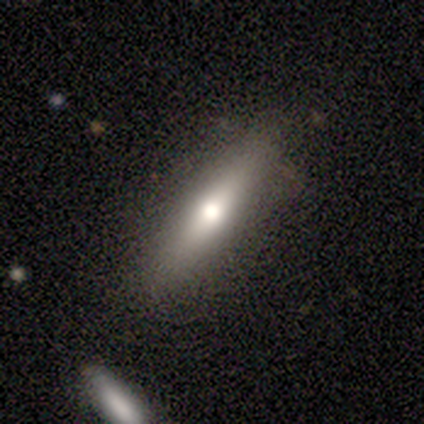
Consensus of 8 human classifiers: This is clearly a smooth galaxy (88%). How rounded: clearly cigar-shaped (86%). Merging: clearly none (86%).